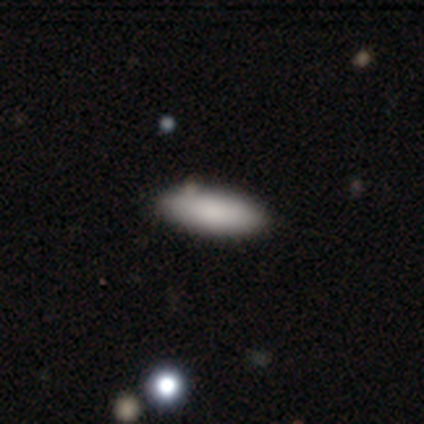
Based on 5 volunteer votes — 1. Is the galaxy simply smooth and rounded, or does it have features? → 100% smooth, 0% featured or disk, 0% star or artifact.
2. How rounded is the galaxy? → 60% in between, 40% cigar-shaped, 0% round.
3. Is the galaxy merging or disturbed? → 80% none, 20% minor disturbance, 0% major disturbance, 0% merger.